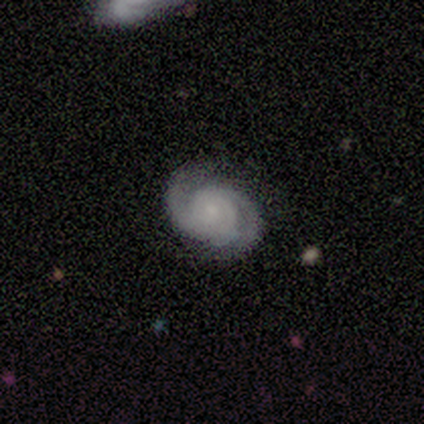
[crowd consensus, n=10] This appears to be a featured or disk galaxy (80%) with no bar (100%), 2 (100%) tight (62%) spiral arms (100%) and a small central bulge (62%). Merging: none (80%).